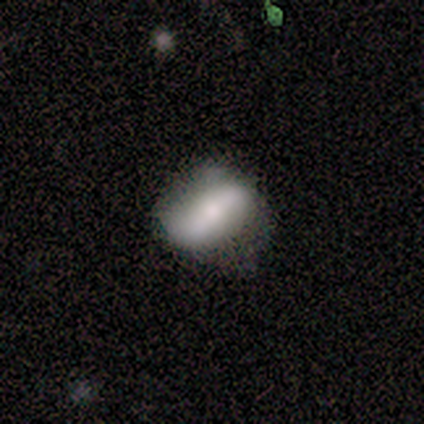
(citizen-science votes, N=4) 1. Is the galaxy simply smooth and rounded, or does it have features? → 50% smooth (tied), 50% featured or disk (tied), 0% star or artifact.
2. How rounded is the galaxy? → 100% in between, 0% round, 0% cigar-shaped.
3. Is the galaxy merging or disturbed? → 50% none (tied), 50% minor disturbance (tied), 0% major disturbance, 0% merger.